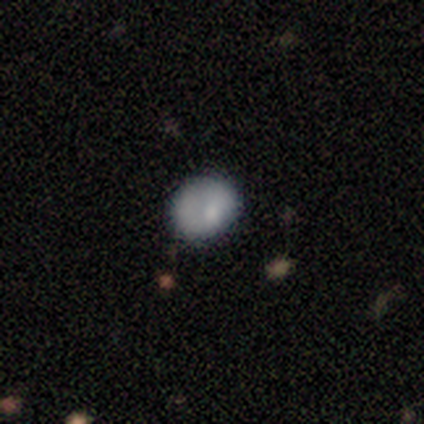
This is likely a smooth galaxy (61%). How rounded: possibly round (58%). Merging: likely none (62%).